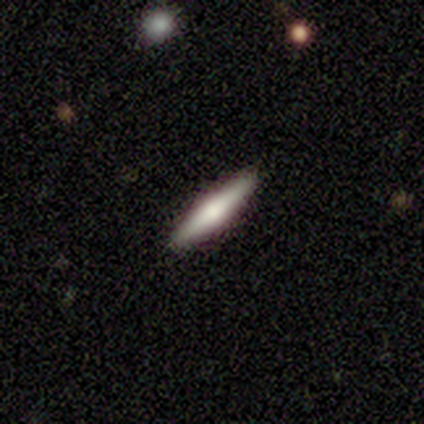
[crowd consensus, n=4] smooth-or-featured: smooth: 50% (tied) | featured or disk: 50% (tied) | star or artifact: 0%
  how-rounded: in between: 50% (tied) | cigar-shaped: 50% (tied) | round: 0%
  merging: none: 100% | minor disturbance: 0% | major disturbance: 0% | merger: 0%